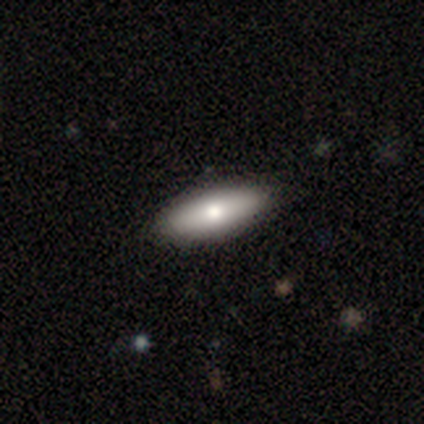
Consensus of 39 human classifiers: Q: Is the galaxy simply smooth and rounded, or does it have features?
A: smooth — 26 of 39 (67%).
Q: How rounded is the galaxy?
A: in between — 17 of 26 (65%).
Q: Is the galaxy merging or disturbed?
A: none — 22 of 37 (59%).